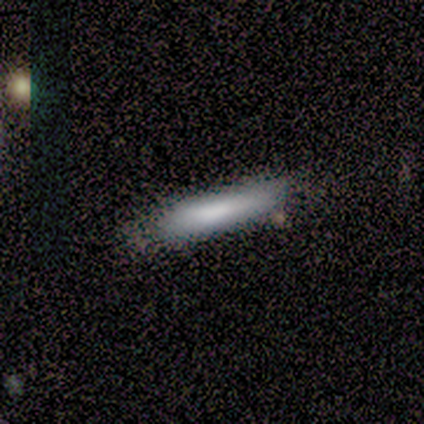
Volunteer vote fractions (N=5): Q: Smooth or featured?
A: smooth (60%); runner-up: star or artifact (40%)
Q: How rounded?
A: cigar-shaped (100%)
Q: Merging?
A: minor disturbance (67%); runner-up: none (33%)